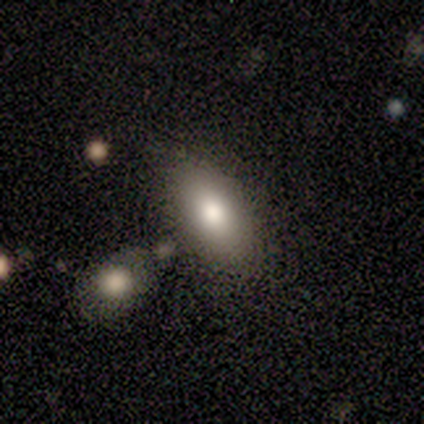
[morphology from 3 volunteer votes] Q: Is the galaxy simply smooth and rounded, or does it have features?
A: smooth — 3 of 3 (100%).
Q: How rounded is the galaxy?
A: in between — 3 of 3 (100%).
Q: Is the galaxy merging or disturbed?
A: none — 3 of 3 (100%).